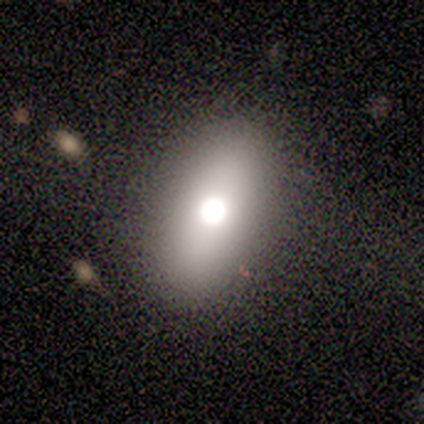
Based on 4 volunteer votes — Smooth or featured? 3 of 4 (75%) said smooth. How rounded? 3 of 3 (100%) said in between. Merging? 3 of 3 (100%) said none.